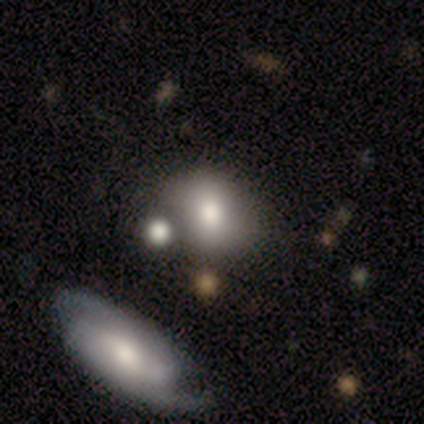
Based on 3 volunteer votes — Smooth or featured? 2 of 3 (67%) said featured or disk. Edge-on disk? 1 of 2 (50%, tied with no) said yes. Edge-on bulge? 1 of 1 (100%) said rounded. Merging? 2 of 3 (67%) said merger.